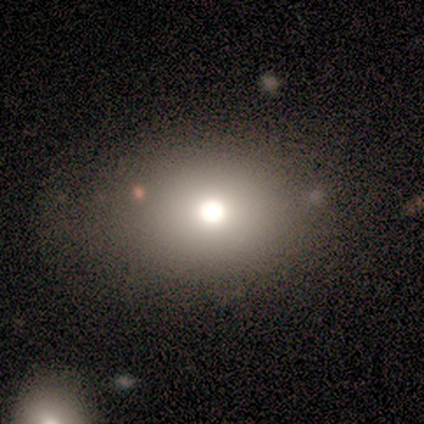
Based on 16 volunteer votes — This is likely a smooth galaxy (75%). How rounded: clearly in between (83%). Merging: clearly none (92%).